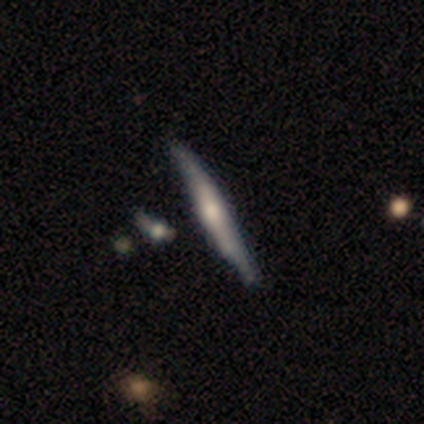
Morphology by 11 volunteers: smooth-or-featured: featured or disk: 91% | smooth: 9% | star or artifact: 0%
  disk-edge-on: yes: 100% | no: 0%
    edge-on-bulge: rounded: 50% | boxy: 30% | none: 20%
  merging: none: 82% | minor disturbance: 9% | merger: 9% | major disturbance: 0%